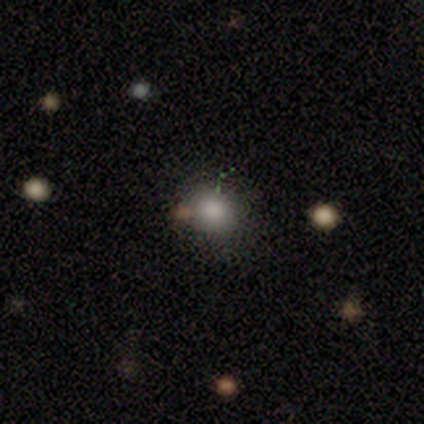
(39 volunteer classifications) Smooth or featured? smooth (69%)
How rounded? round (81%)
Merging? none (64%)